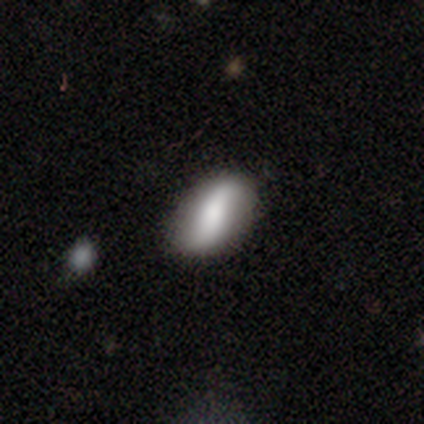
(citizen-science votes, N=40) Smooth or featured? 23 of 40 (57%) said featured or disk. Edge-on disk? 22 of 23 (96%) said no. Bar? 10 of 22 (45%) said no. Spiral arms? 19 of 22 (86%) said yes. Spiral winding? 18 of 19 (95%) said loose. Spiral arm count? 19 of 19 (100%) said 2. Bulge size? 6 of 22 (27%, tied with none) said large. Merging? 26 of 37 (70%) said none.